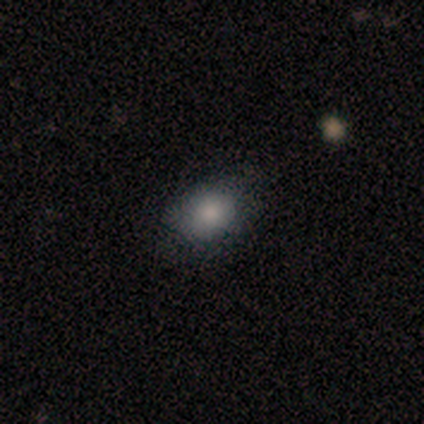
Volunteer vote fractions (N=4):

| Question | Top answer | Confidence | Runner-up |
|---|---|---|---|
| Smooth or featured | smooth | 75% | featured or disk (25%) |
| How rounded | in between | 67% | round (33%) |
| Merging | none | 75% | minor disturbance (25%) |